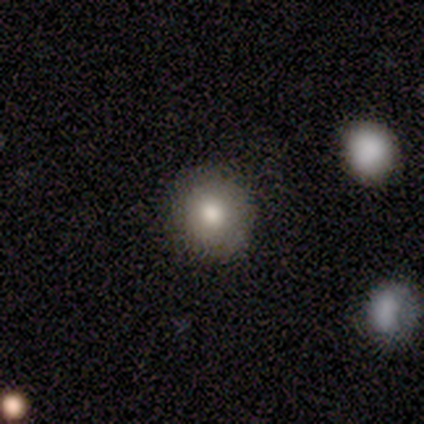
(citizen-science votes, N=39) smooth 77%, featured or disk 21%, star or artifact 3%. Down the decision tree: how rounded — round (87%); merging — none (87%).